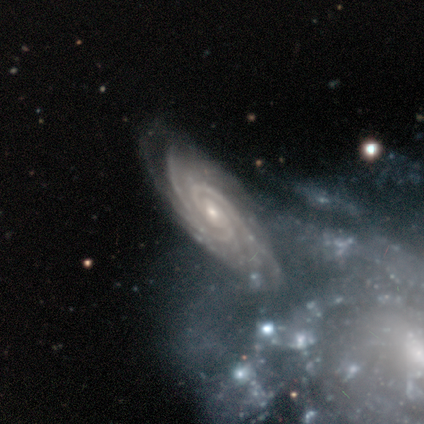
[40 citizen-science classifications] This is clearly a featured or disk galaxy (90%). It is clearly not viewed edge-on (89%). Bar: possibly no (50%). Spiral arm pattern: clearly yes (100%). Spiral arm count: marginally 3 (34%). Spiral winding: likely tight (66%). Central bulge: possibly small (56%). Merging: possibly none (59%).